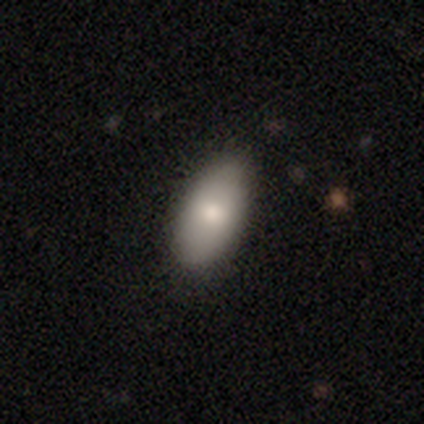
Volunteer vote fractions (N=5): smooth-or-featured: smooth: 100% | featured or disk: 0% | star or artifact: 0%
  how-rounded: in between: 100% | round: 0% | cigar-shaped: 0%
  merging: none: 100% | minor disturbance: 0% | major disturbance: 0% | merger: 0%